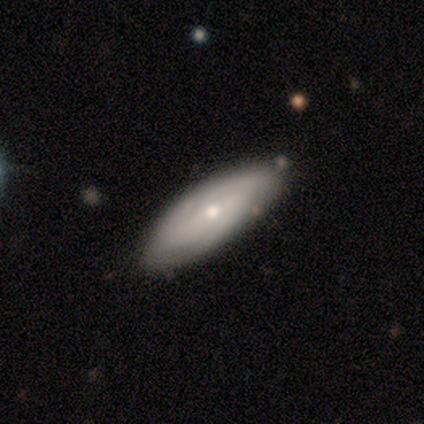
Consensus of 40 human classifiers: Smooth or featured?
  - featured or disk: 55% *
  - smooth: 42%
  - star or artifact: 2%
Edge-on disk?
  - no: 82% *
  - yes: 18%
Bar?
  - no: 44% *
  - weak: 39%
  - strong: 17%
Spiral arms?
  - yes: 72% *
  - no: 28%
Spiral winding?
  - medium: 54% *
  - tight: 38%
  - loose: 8%
Spiral arm count?
  - 3: 38% *
  - 2: 31%
  - 4: 15%
  - can't tell: 15%
  - 1: 0%
  - more than 4: 0%
Bulge size?
  - moderate: 56% *
  - small: 33%
  - dominant: 6%
  - none: 6%
  - large: 0%
Merging?
  - none: 69% *
  - minor disturbance: 18%
  - major disturbance: 8%
  - merger: 5%